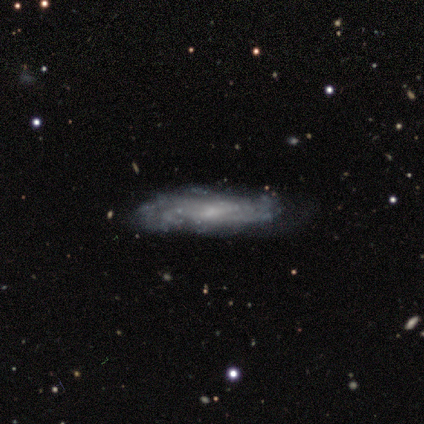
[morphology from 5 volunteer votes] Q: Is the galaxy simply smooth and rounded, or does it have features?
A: featured or disk — 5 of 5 (100%).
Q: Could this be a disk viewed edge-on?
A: no — 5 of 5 (100%).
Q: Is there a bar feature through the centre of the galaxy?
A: weak — 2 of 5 (40%, tied with no).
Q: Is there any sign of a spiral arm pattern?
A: yes — 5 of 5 (100%).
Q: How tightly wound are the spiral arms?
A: medium — 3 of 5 (60%).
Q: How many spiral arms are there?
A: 4 — 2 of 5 (40%).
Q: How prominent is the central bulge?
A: small — 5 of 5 (100%).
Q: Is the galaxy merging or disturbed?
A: none — 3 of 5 (60%).